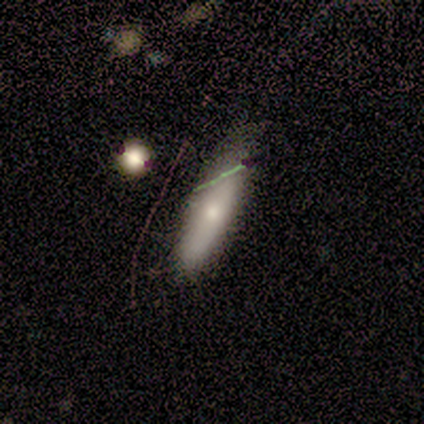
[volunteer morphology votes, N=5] smooth_or_featured: smooth (p=0.60) [alt: featured or disk p=0.40]
how_rounded: cigar-shaped (p=0.67) [alt: in between p=0.33]
merging: none (p=0.60) [alt: minor disturbance p=0.40]